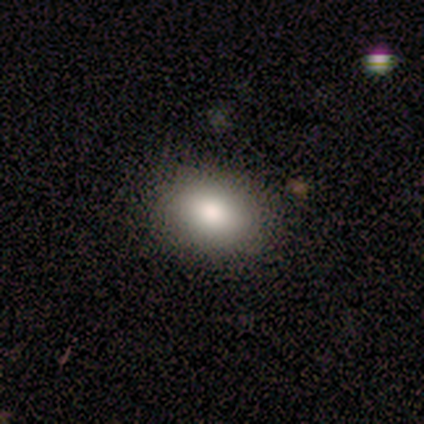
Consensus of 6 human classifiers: smooth_or_featured: smooth (p=0.83) [alt: star or artifact p=0.17]
how_rounded: in between (p=1.00)
merging: none (p=0.80) [alt: minor disturbance p=0.20]